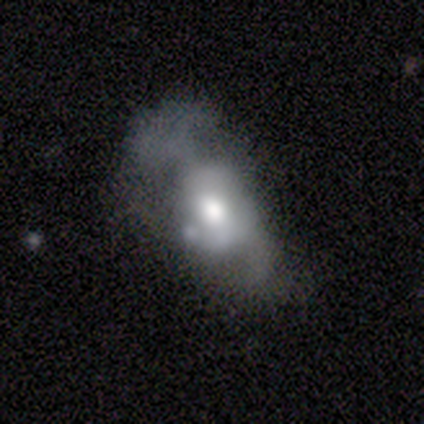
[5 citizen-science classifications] Smooth or featured? 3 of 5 (60%) said smooth. How rounded? 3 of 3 (100%) said in between. Merging? 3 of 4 (75%) said major disturbance.